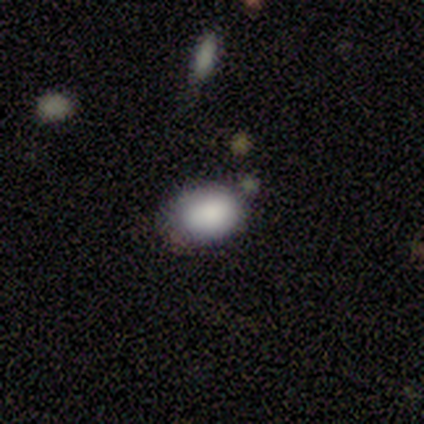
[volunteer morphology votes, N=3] Smooth or featured? 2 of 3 (67%) said smooth. How rounded? 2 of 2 (100%) said in between. Merging? 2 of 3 (67%) said none.